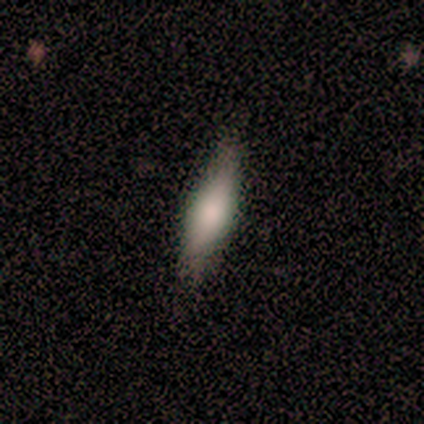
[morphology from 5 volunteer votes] Smooth or featured? 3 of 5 (60%) said smooth. How rounded? 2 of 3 (67%) said in between. Merging? 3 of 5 (60%) said minor disturbance.